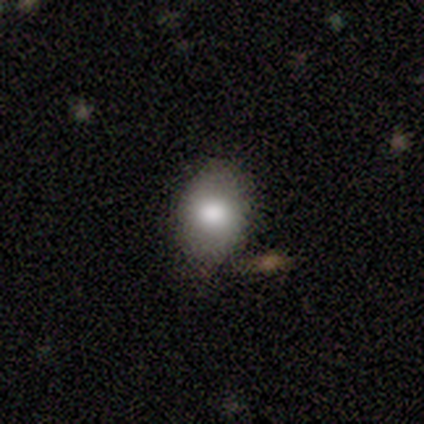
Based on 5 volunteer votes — Smooth or featured? 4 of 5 (80%) said smooth. How rounded? 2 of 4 (50%, tied with in between) said round. Merging? 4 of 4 (100%) said none.